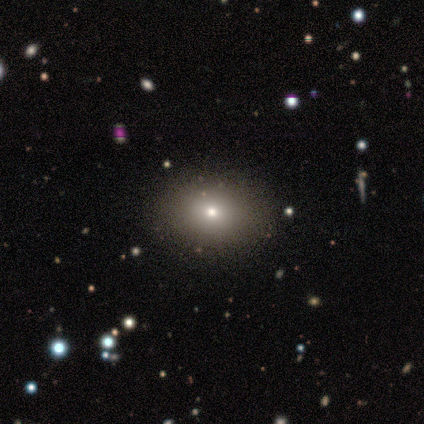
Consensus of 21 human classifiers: smooth-or-featured: smooth: 71% | featured or disk: 19% | star or artifact: 10%
  how-rounded: round: 53% | in between: 47% | cigar-shaped: 0%
  merging: none: 53% | minor disturbance: 0% | major disturbance: 0% | merger: 0%